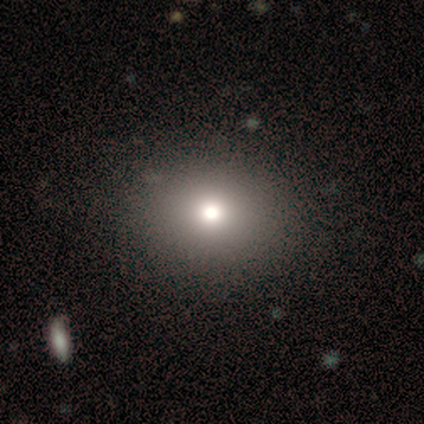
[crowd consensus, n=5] smooth_or_featured: smooth (p=0.60) [alt: star or artifact p=0.40]
how_rounded: round (p=0.67) [alt: in between p=0.33]
merging: minor disturbance (p=0.67) [alt: none p=0.33]